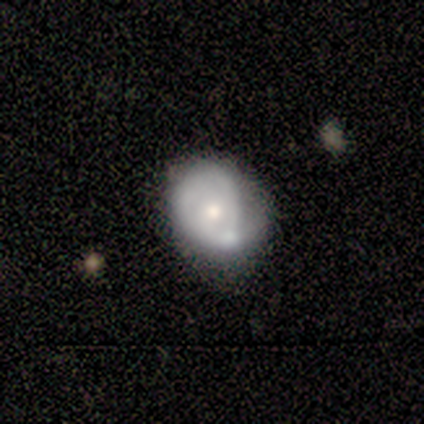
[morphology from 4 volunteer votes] A smooth galaxy with no disk features (50%, tied with featured or disk) that is round (50%, tied with in between).

Vote fractions:
- Smooth or featured? smooth: 50% (tied) / featured or disk: 50% (tied) / star or artifact: 0%
- How rounded? round: 50% (tied) / in between: 50% (tied) / cigar-shaped: 0%
- Merging? major disturbance: 50% / none: 25% / minor disturbance: 25% / merger: 0%